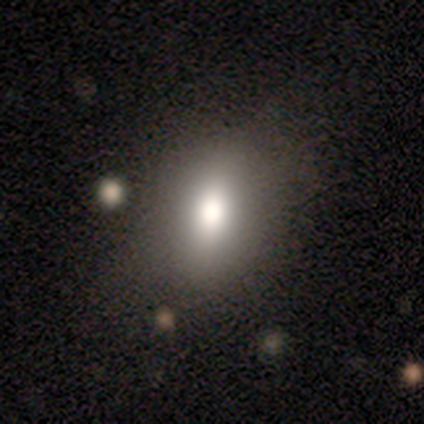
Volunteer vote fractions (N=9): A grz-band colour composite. It shows a smooth galaxy with no disk features (78%) that is in between round and cigar-shaped (86%). Merging: none (62%).